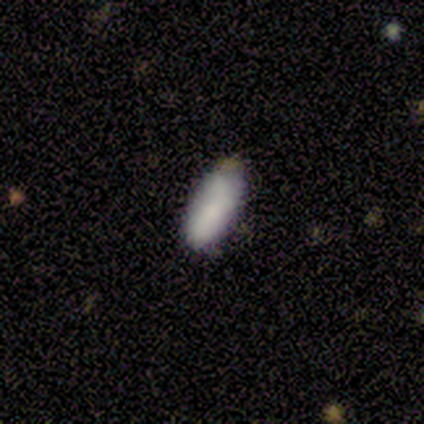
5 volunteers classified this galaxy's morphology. smooth_or_featured: smooth (p=0.60) [alt: featured or disk p=0.20]
how_rounded: in between (p=1.00)
merging: none (p=0.50) [alt: minor disturbance p=0.25]